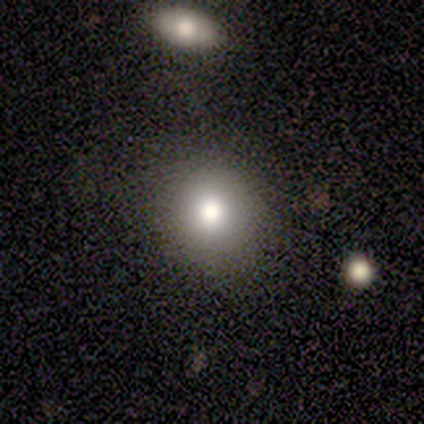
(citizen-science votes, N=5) Smooth or featured?
  - smooth: 80% *
  - featured or disk: 20%
  - star or artifact: 0%
How rounded?
  - round: 100% *
  - in between: 0%
  - cigar-shaped: 0%
Merging?
  - none: 100% *
  - minor disturbance: 0%
  - major disturbance: 0%
  - merger: 0%